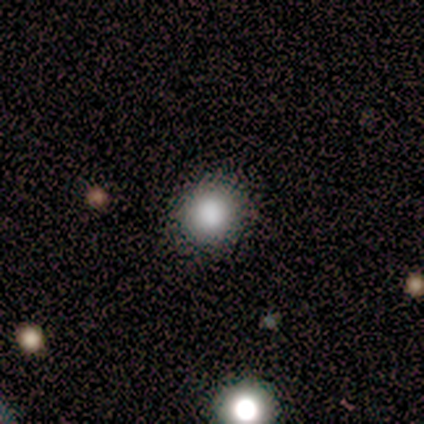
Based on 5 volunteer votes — Smooth or featured?
  - smooth: 80% *
  - star or artifact: 20%
  - featured or disk: 0%
How rounded?
  - round: 100% *
  - in between: 0%
  - cigar-shaped: 0%
Merging?
  - none: 100% *
  - minor disturbance: 0%
  - major disturbance: 0%
  - merger: 0%